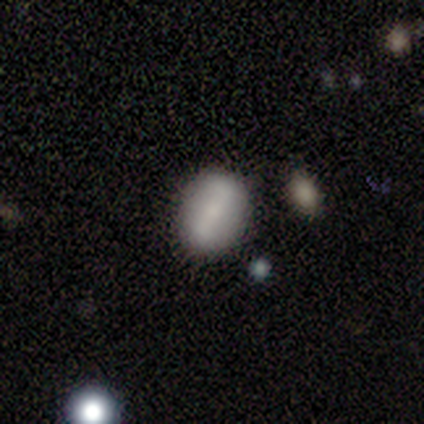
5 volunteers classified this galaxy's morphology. Smooth or featured? 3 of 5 (60%) said featured or disk. Edge-on disk? 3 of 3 (100%) said no. Bar? 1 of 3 (33%, tied with weak and no) said strong. Spiral arms? 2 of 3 (67%) said no. Bulge size? 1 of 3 (33%, tied with small and none) said moderate. Merging? 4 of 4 (100%) said none.